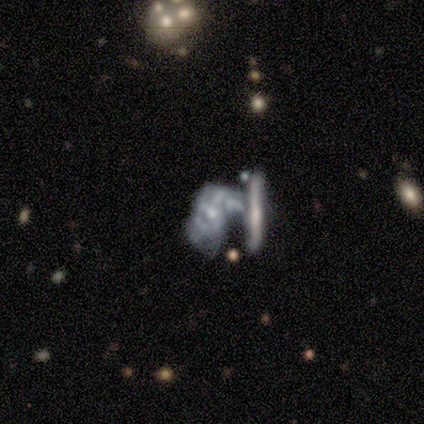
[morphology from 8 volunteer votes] smooth_or_featured: featured or disk (p=1.00)
disk_edge_on: no (p=1.00)
bar: no (p=0.88) [alt: strong p=0.12]
has_spiral_arms: yes (p=0.62) [alt: no p=0.38]
spiral_winding: tight (p=0.40) [tied with: medium p=0.40]
spiral_arm_count: can't tell (p=0.60) [alt: 3 p=0.20]
bulge_size: moderate (p=0.50) [tied with: small p=0.50]
merging: merger (p=0.50) [alt: major disturbance p=0.25]